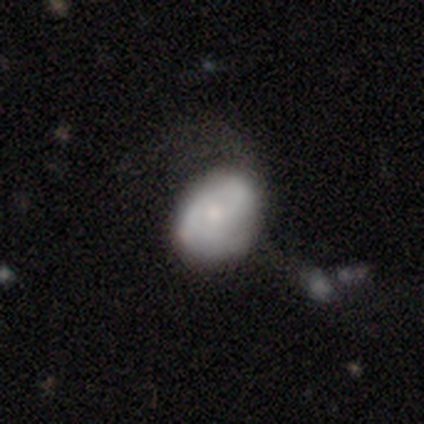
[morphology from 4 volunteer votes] Q: Smooth or featured?
A: smooth (100%)
Q: How rounded?
A: in between (100%)
Q: Merging?
A: none (50%); tied with: minor disturbance (50%)